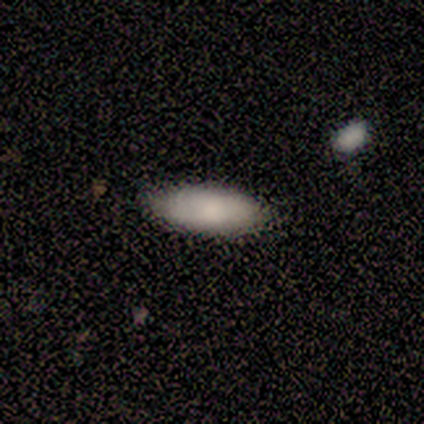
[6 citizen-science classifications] Overall: smooth (67%; star or artifact 33%). How rounded: in between (75%). Merging: none (100%).